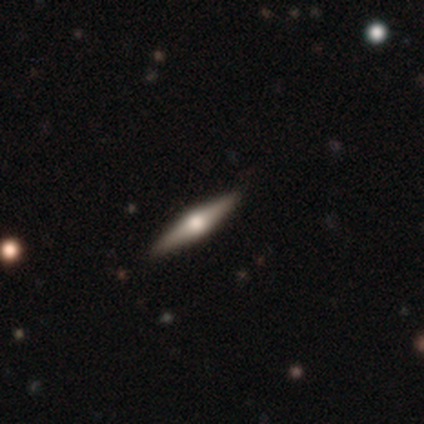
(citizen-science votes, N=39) Morphology: type=featured or disk (74%); edge-on=yes (100%); edge-on bulge=rounded (97%); merging=none (94%).